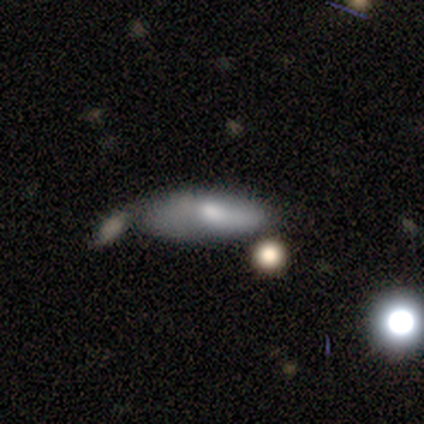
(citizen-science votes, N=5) Smooth or featured? smooth (40%, tied with featured or disk)
How rounded? in between (50%, tied with cigar-shaped)
Merging? minor disturbance (50%)